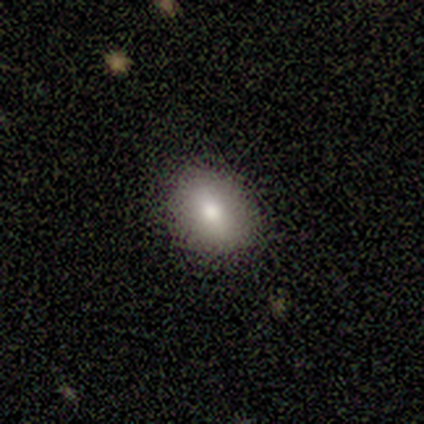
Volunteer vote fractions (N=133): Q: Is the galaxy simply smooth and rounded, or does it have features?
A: smooth — 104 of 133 (78%).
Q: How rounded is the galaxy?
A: in between — 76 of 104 (73%).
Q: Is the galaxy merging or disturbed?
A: none — 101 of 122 (83%).